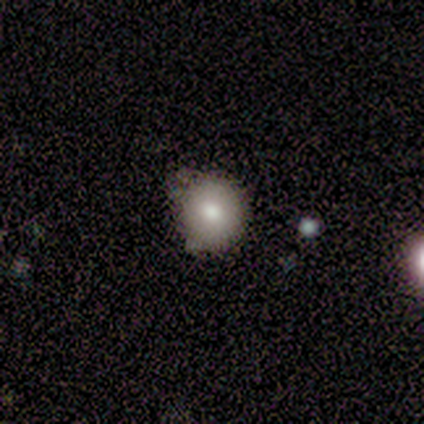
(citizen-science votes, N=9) Q: Smooth or featured?
A: smooth (89%); runner-up: featured or disk (11%)
Q: How rounded?
A: round (88%); runner-up: in between (12%)
Q: Merging?
A: none (67%); runner-up: minor disturbance (33%)